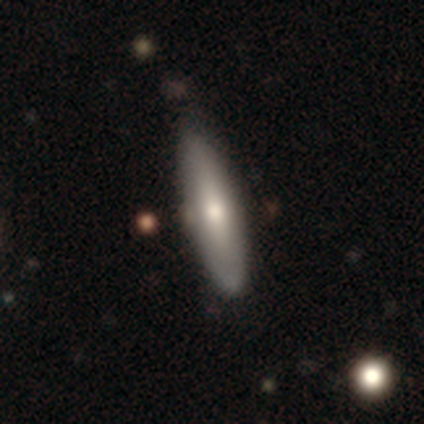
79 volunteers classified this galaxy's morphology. A smooth galaxy with no disk features (67%) that is cigar-shaped (68%). Merging: none (39%).